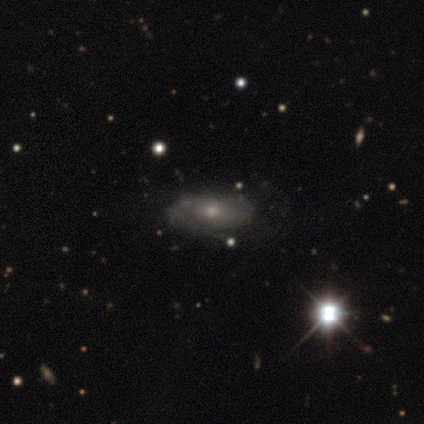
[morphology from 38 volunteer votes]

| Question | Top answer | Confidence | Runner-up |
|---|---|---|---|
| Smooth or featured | featured or disk | 61% | smooth (34%) |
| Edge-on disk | no | 91% | yes (9%) |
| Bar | no | 86% | weak (14%) |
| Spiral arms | yes | 62% | no (38%) |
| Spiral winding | medium | 46% | loose (31%) |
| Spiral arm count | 1 | 38% | tied: can't tell (38%) |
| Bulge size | small | 52% | moderate (48%) |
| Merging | none | 75% | minor disturbance (25%) |